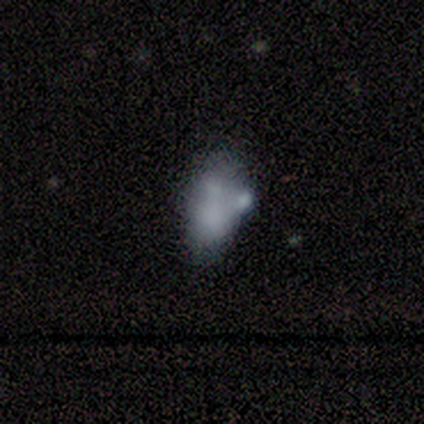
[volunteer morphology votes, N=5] This is likely a featured or disk galaxy (60%). It is clearly not viewed edge-on (100%). Bar: likely no (67%). Spiral arm pattern: clearly no (100%). Central bulge: likely none (67%). Merging: marginally none (40%, tied with merger).